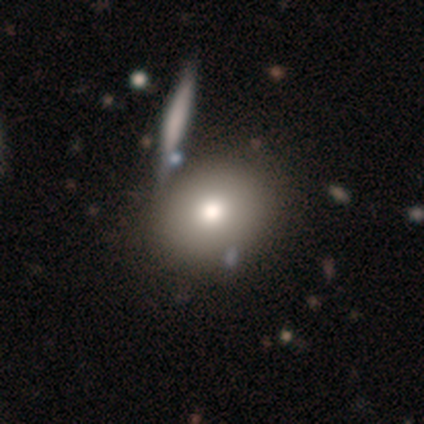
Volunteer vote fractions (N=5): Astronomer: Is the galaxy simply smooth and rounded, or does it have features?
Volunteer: smooth — 100%.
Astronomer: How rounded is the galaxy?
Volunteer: round — 60% (runner-up: in between, 40%).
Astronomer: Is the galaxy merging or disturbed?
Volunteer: minor disturbance — 60% (runner-up: none, 40%).